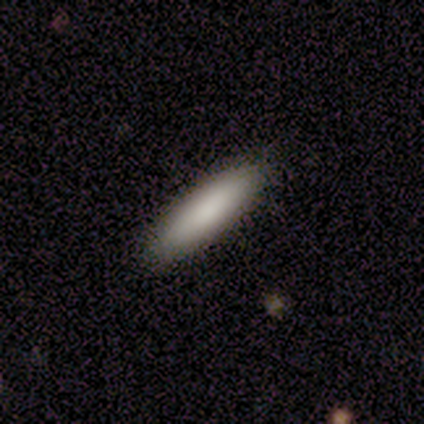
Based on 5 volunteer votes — Smooth or featured: smooth — 80% (featured or disk — 20%)
How rounded: cigar-shaped — 100%
Merging: none — 100%